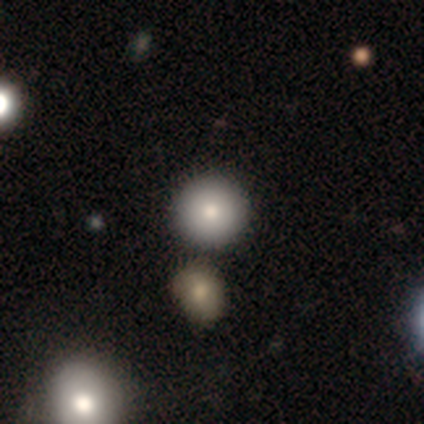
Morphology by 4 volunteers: smooth-or-featured: smooth: 75% | featured or disk: 25% | star or artifact: 0%
  how-rounded: round: 100% | in between: 0% | cigar-shaped: 0%
  merging: none: 100% | minor disturbance: 0% | major disturbance: 0% | merger: 0%